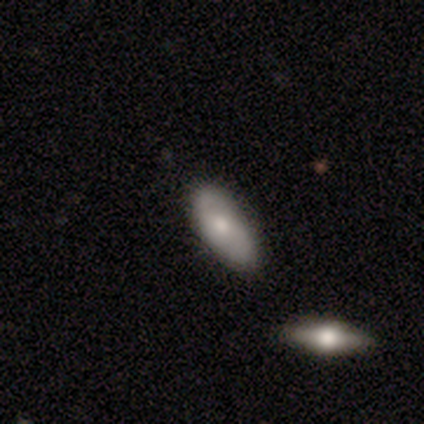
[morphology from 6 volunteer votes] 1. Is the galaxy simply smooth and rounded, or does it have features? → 50% smooth (tied), 50% featured or disk (tied), 0% star or artifact.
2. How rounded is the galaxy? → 100% in between, 0% round, 0% cigar-shaped.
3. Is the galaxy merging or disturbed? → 83% none, 17% minor disturbance, 0% major disturbance, 0% merger.